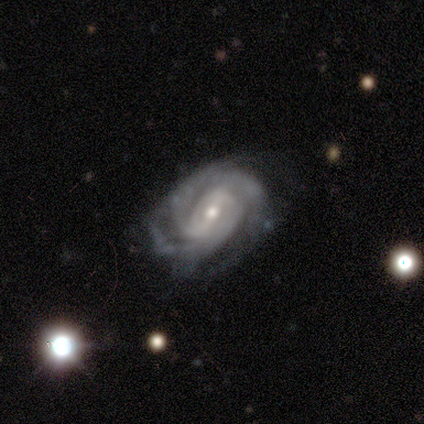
smooth_or_featured: featured or disk (p=1.00)
disk_edge_on: no (p=1.00)
bar: weak (p=0.50) [alt: strong p=0.25]
has_spiral_arms: yes (p=1.00)
spiral_winding: tight (p=0.50) [alt: medium p=0.25]
spiral_arm_count: 2 (p=0.50) [alt: 4 p=0.25]
bulge_size: moderate (p=0.75) [alt: small p=0.25]
merging: none (p=1.00)